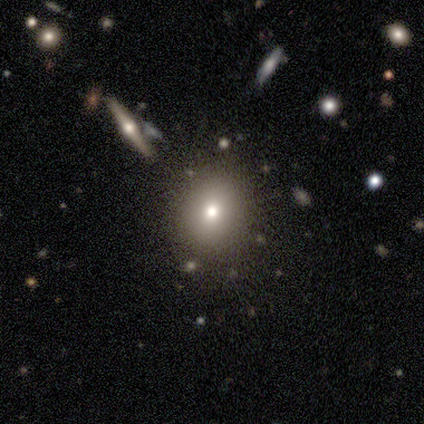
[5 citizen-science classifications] A smooth galaxy with no disk features (40%, tied with star or artifact) that is round (100%). Merging: none (100%).